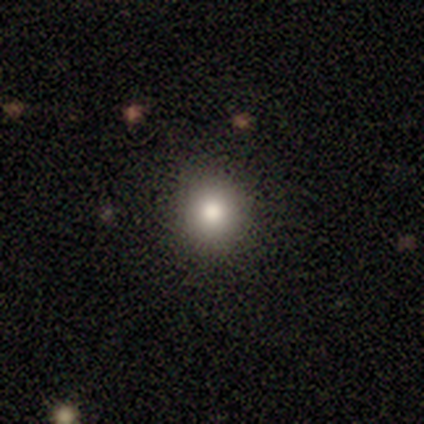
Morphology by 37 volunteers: Smooth or featured?
  - smooth: 78% *
  - featured or disk: 11%
  - star or artifact: 11%
How rounded?
  - round: 100% *
  - in between: 0%
  - cigar-shaped: 0%
Merging?
  - none: 94% *
  - minor disturbance: 3%
  - merger: 3%
  - major disturbance: 0%